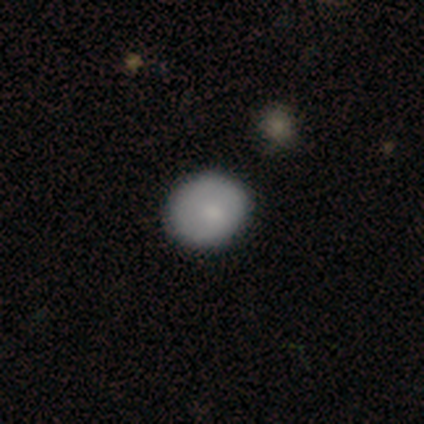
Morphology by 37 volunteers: Overall: smooth (78%). How rounded: round (79%). Merging: none (77%).